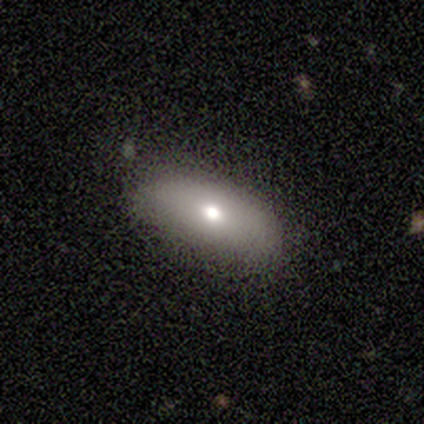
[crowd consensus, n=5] smooth-or-featured: smooth: 80% | featured or disk: 20% | star or artifact: 0%
  how-rounded: in between: 100% | round: 0% | cigar-shaped: 0%
  merging: none: 80% | minor disturbance: 20% | major disturbance: 0% | merger: 0%